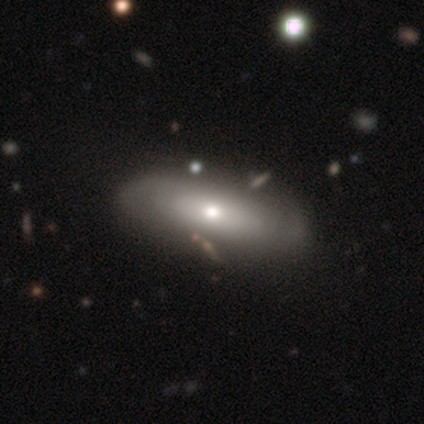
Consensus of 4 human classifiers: This is likely a featured or disk galaxy (75%). It is likely not viewed edge-on (67%). Bar: clearly no (100%). Spiral arm pattern: possibly yes (50%, tied with no). Spiral arm count: clearly can't tell (100%). Spiral winding: clearly tight (100%). Central bulge: possibly moderate (50%, tied with small). Merging: likely none (75%).